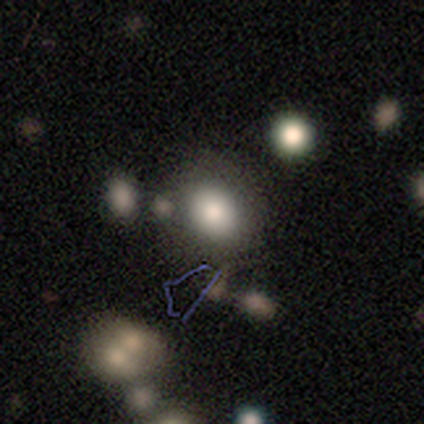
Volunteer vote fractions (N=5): A smooth galaxy with no disk features (80%) that is round (75%). Merging: none (50%).